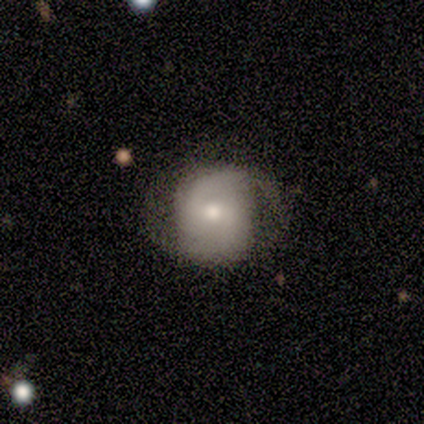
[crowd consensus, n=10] Volunteers were most divided on "spiral winding" (2-way tie): medium: 43%, loose: 43%, tight: 14%. More confident: spiral arm count — 2 (100%); smooth or featured — featured or disk (90%); edge-on disk — no (89%); spiral arms — yes (88%); merging — none (80%); bulge size — small (50%); bar — weak (50%).